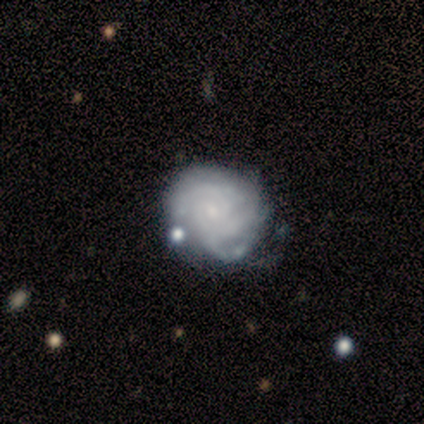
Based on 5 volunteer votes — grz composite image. It shows a featured or disk galaxy (100%) with no bar (80%), 3 (40%, tied with can't tell) tight (60%) spiral arms (100%) and a small central bulge (80%). Merging: none (60%).